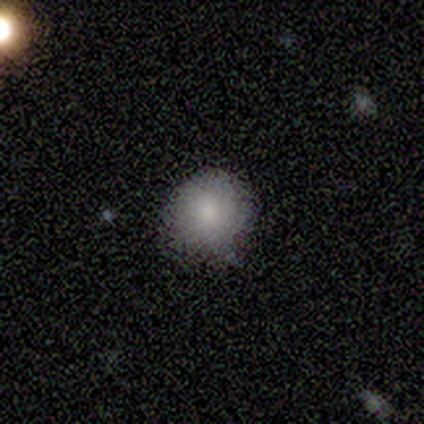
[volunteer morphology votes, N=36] Q: Smooth or featured?
A: smooth (86%); runner-up: featured or disk (8%)
Q: How rounded?
A: round (100%)
Q: Merging?
A: none (62%); runner-up: minor disturbance (38%)